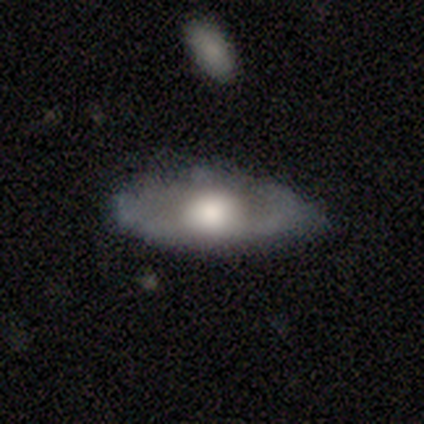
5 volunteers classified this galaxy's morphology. Volunteers were most divided on "merging": none: 60%, minor disturbance: 40%, major disturbance: 0%, merger: 0%. More confident: smooth or featured — smooth (100%); how rounded — in between (100%).